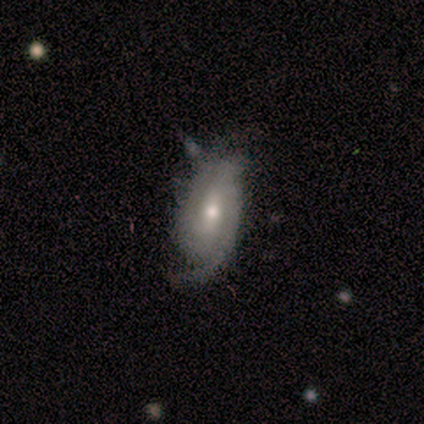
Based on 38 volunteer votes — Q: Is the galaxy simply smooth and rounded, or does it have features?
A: featured or disk — 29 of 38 (76%).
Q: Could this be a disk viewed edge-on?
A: no — 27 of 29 (93%).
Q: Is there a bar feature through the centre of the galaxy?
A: weak — 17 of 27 (63%).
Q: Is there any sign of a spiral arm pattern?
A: yes — 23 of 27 (85%).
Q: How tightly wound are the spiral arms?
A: tight — 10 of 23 (43%, tied with medium).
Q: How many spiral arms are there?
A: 2 — 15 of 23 (65%).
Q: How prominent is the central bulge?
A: moderate — 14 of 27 (52%).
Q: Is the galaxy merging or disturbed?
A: none — 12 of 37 (32%).